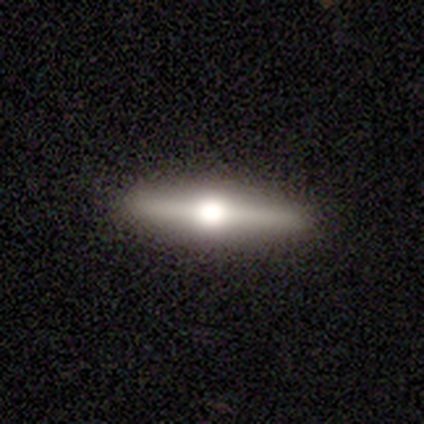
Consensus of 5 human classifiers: Overall: featured or disk (100%). Edge-on disk: yes (100%). Edge-on bulge: rounded (100%). Merging: none (80%).